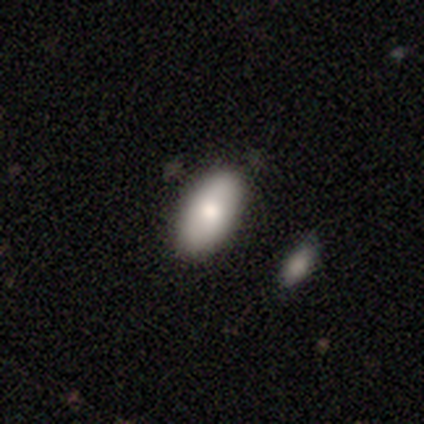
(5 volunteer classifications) A smooth galaxy with no disk features (60%) that is in between round and cigar-shaped (100%). Merging: none (80%).